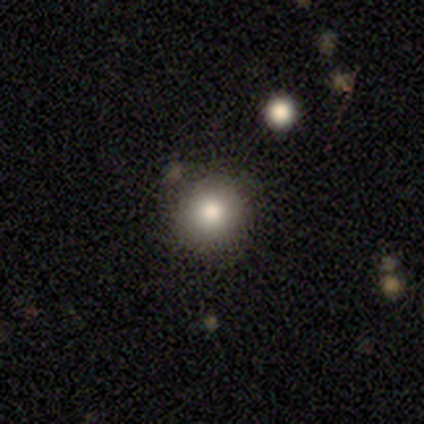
This appears to be a smooth galaxy with no disk features (100%) that is round (100%). Merging: none (75%).